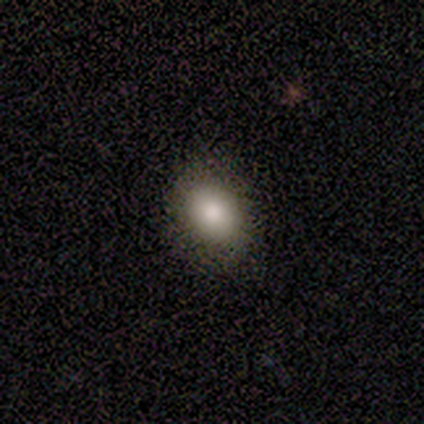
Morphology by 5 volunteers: This is clearly a smooth galaxy (80%). How rounded: possibly round (50%, tied with in between). Merging: clearly none (100%).